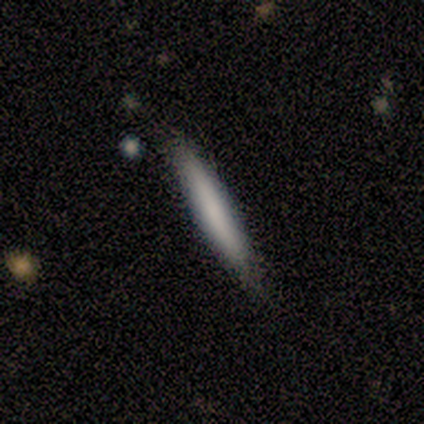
A smooth galaxy with no disk features (100%) that is cigar-shaped (80%). Merging: none (100%).